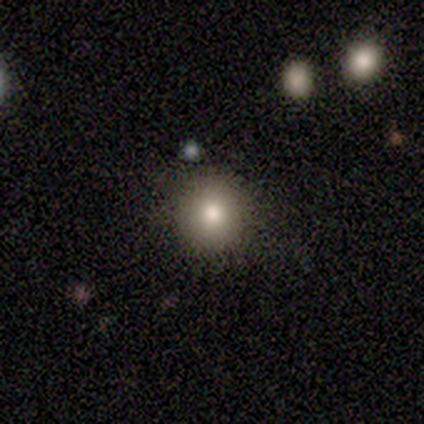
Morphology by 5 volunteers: Volunteers were most divided on "smooth or featured": smooth: 60%, featured or disk: 40%, star or artifact: 0%. More confident: how rounded — round (100%); merging — none (100%).